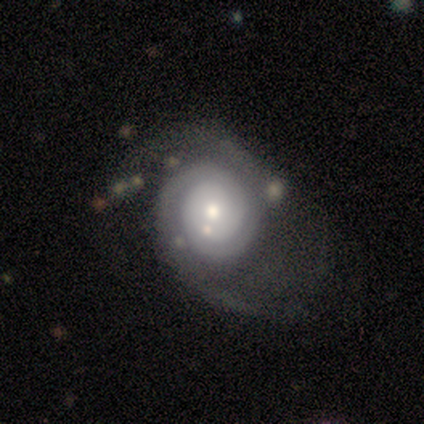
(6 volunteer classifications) Q: Smooth or featured?
A: featured or disk (100%)
Q: Edge-on disk?
A: no (100%)
Q: Bar?
A: no (83%); runner-up: weak (17%)
Q: Spiral arms?
A: yes (100%)
Q: Spiral winding?
A: tight (50%); runner-up: medium (33%)
Q: Spiral arm count?
A: 2 (67%); runner-up: 1 (17%)
Q: Bulge size?
A: moderate (67%); runner-up: small (33%)
Q: Merging?
A: major disturbance (67%); runner-up: none (33%)